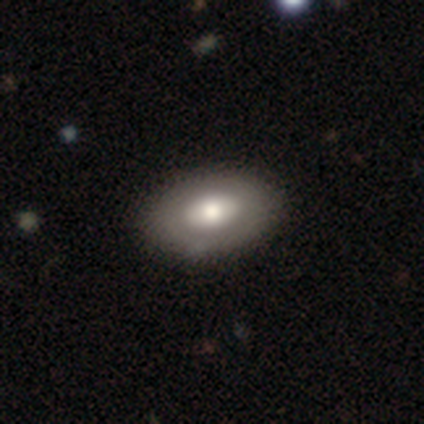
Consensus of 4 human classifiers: A smooth galaxy with no disk features (100%) that is in between round and cigar-shaped (75%). Merging: none (75%).